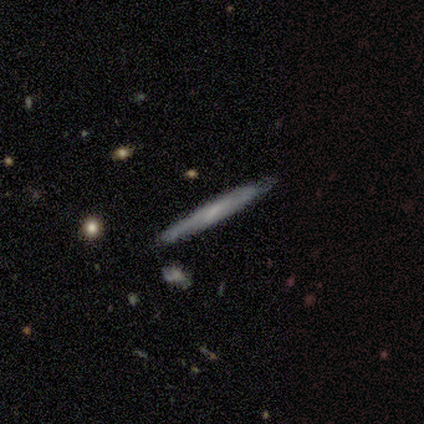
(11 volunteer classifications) Smooth or featured?
  - smooth: 64% *
  - featured or disk: 36%
  - star or artifact: 0%
How rounded?
  - cigar-shaped: 100% *
  - round: 0%
  - in between: 0%
Merging?
  - none: 55% *
  - minor disturbance: 36%
  - merger: 9%
  - major disturbance: 0%